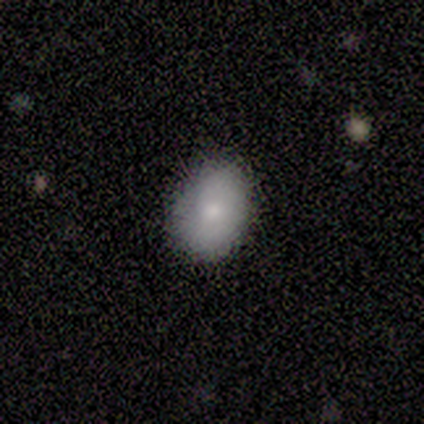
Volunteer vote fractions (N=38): smooth 76%, featured or disk 18%, star or artifact 5%. Down the decision tree: how rounded — in between (62%); merging — none (78%).